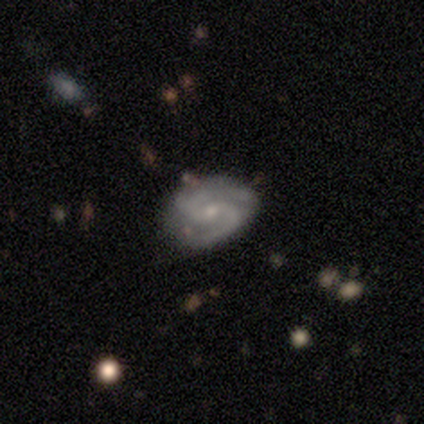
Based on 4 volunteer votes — This appears to be a featured or disk galaxy (100%) with a weak bar (50%, tied with no), 2 (100%) tight (50%, tied with medium) spiral arms (100%) and a small central bulge (100%). Merging: none (75%).